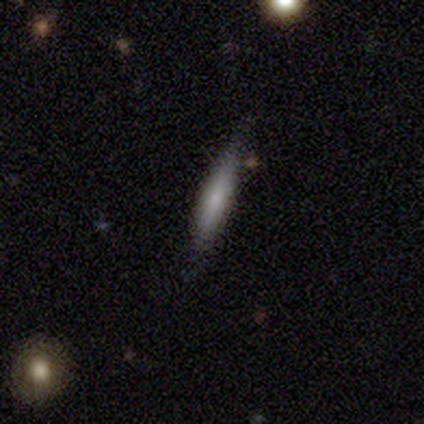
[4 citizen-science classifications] smooth_or_featured: smooth (p=1.00)
how_rounded: cigar-shaped (p=1.00)
merging: none (p=0.75) [alt: minor disturbance p=0.25]